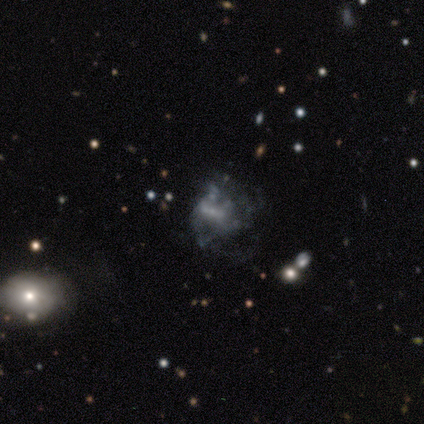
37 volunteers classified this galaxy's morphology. Smooth or featured? 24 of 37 (65%) said featured or disk. Edge-on disk? 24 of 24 (100%) said no. Bar? 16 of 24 (67%) said no. Spiral arms? 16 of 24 (67%) said no. Bulge size? 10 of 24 (42%) said small. Merging? 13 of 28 (46%) said major disturbance.